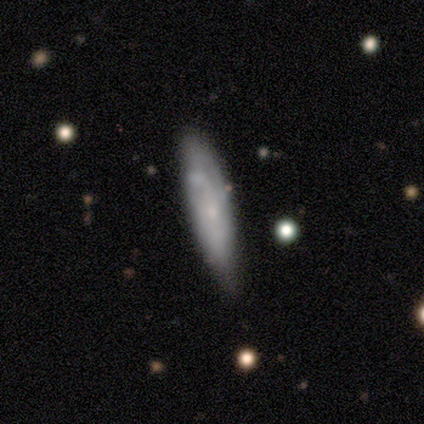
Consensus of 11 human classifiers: A smooth galaxy with no disk features (45%, tied with featured or disk) that is cigar-shaped (60%). Merging: none (50%, tied with minor disturbance).